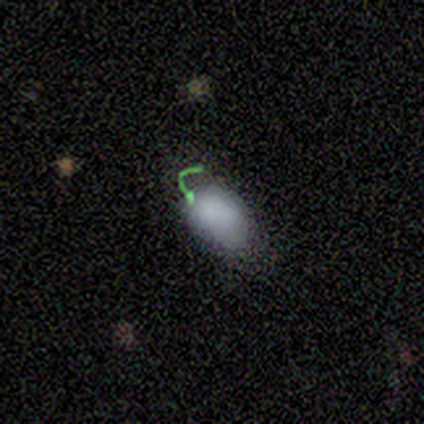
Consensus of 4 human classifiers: smooth-or-featured: smooth: 100% | featured or disk: 0% | star or artifact: 0%
  how-rounded: in between: 100% | round: 0% | cigar-shaped: 0%
  merging: minor disturbance: 50% | none: 25% | major disturbance: 25% | merger: 0%